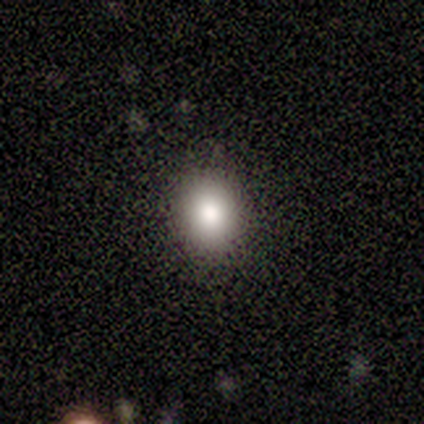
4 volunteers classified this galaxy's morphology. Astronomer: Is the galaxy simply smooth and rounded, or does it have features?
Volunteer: smooth — 100%.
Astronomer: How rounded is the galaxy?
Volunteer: round — 50%, tied with in between at 50%.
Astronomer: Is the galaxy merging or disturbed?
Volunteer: none — 75%.